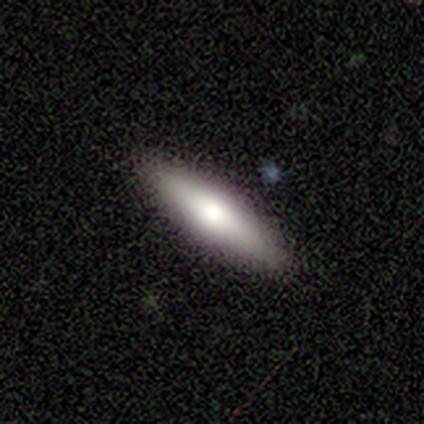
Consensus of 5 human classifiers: A featured or disk galaxy (60%) viewed edge-on (67%) with a rounded central bulge (100%). Merging: none (60%).